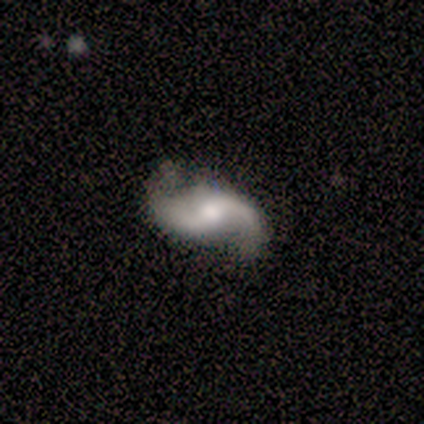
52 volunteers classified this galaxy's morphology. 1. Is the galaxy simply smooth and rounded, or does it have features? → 88% featured or disk, 8% star or artifact, 4% smooth.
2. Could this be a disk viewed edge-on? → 100% no, 0% yes.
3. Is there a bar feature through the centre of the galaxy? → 48% weak, 46% no, 7% strong.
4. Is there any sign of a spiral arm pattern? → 96% yes, 4% no.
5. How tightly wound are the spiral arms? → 75% loose, 23% medium, 2% tight.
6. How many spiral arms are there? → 100% 2, 0% 1, 0% 3, 0% 4, 0% more than 4, 0% can't tell.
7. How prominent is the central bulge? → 52% moderate, 35% small, 7% large, 7% none, 0% dominant.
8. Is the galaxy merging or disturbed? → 79% none, 21% minor disturbance, 0% major disturbance, 0% merger.